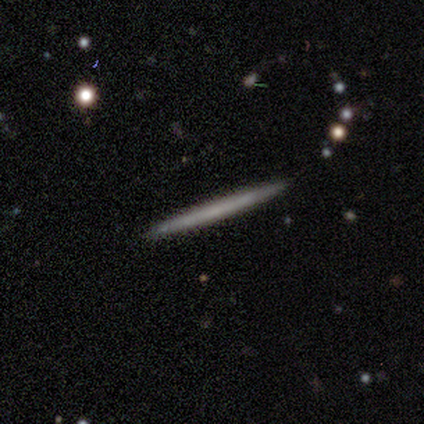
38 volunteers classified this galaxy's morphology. Volunteers were most divided on "smooth or featured": smooth: 55%, featured or disk: 39%, star or artifact: 5%. More confident: how rounded — cigar-shaped (95%); merging — none (86%).